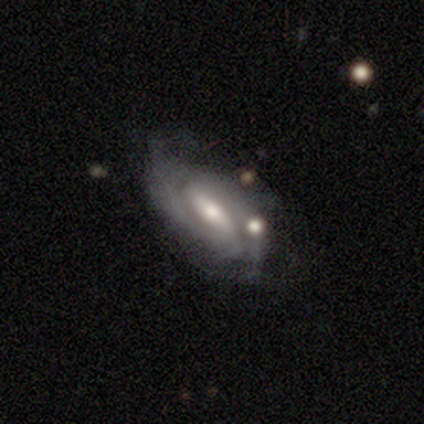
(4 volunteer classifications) Q: Smooth or featured?
A: featured or disk (100%)
Q: Edge-on disk?
A: no (75%); runner-up: yes (25%)
Q: Bar?
A: strong (33%); tied with: weak (33%); no (33%)
Q: Spiral arms?
A: yes (100%)
Q: Spiral winding?
A: tight (67%); runner-up: medium (33%)
Q: Spiral arm count?
A: 2 (100%)
Q: Bulge size?
A: moderate (67%); runner-up: small (33%)
Q: Merging?
A: none (50%); runner-up: minor disturbance (25%)